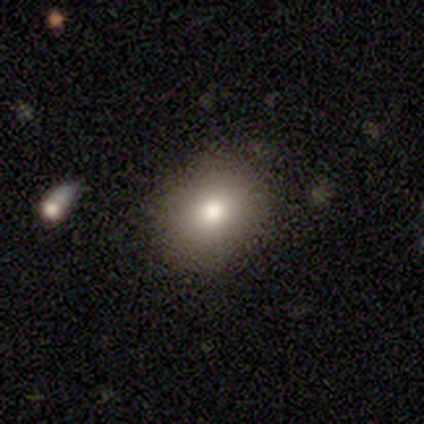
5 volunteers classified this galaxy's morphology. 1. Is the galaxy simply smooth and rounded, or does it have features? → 80% smooth, 20% star or artifact, 0% featured or disk.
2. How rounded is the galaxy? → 75% round, 25% in between, 0% cigar-shaped.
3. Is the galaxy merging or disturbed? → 100% none, 0% minor disturbance, 0% major disturbance, 0% merger.